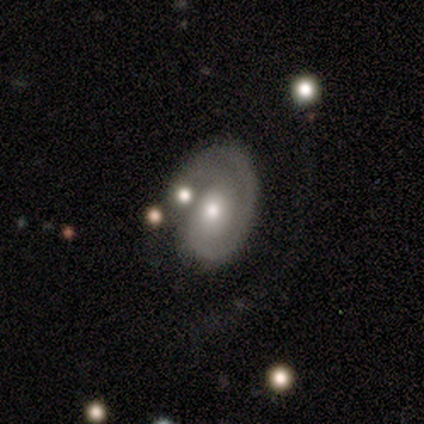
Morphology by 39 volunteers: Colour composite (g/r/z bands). It shows a featured or disk galaxy (64%) with no bar (80%), 1 (72%) tight (60%) spiral arms (100%) and a moderate central bulge (68%). Merging: major disturbance (40%).